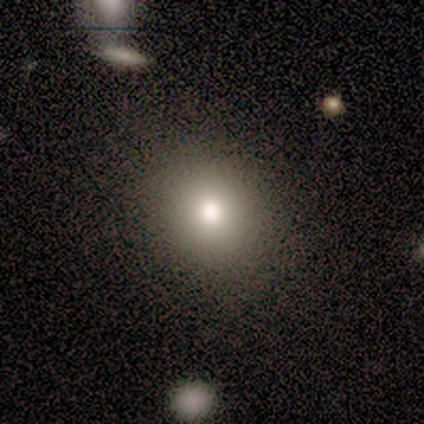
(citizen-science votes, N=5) Smooth or featured? smooth (60%)
How rounded? round (67%)
Merging? none (100%)